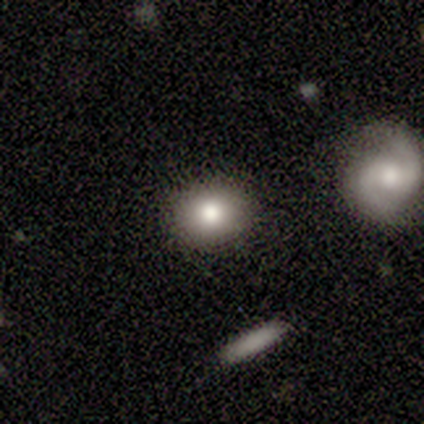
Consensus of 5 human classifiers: Overall: smooth (80%). How rounded: round (75%). Merging: none (100%).